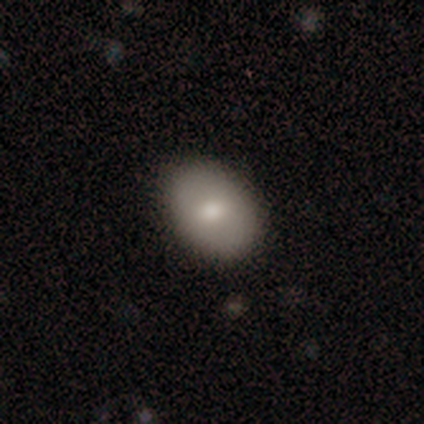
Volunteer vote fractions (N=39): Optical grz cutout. It shows a smooth galaxy with no disk features (79%) that is in between round and cigar-shaped (81%). Merging: none (86%).